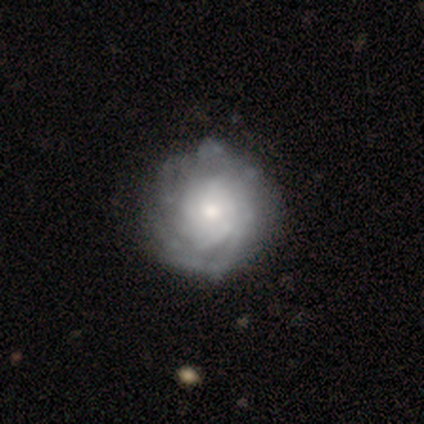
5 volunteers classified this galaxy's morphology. Q: Smooth or featured?
A: featured or disk (40%); tied with: star or artifact (40%)
Q: Edge-on disk?
A: no (100%)
Q: Bar?
A: weak (50%); tied with: no (50%)
Q: Spiral arms?
A: yes (100%)
Q: Spiral winding?
A: tight (50%); tied with: medium (50%)
Q: Spiral arm count?
A: can't tell (100%)
Q: Bulge size?
A: large (50%); tied with: small (50%)
Q: Merging?
A: none (67%); runner-up: major disturbance (33%)